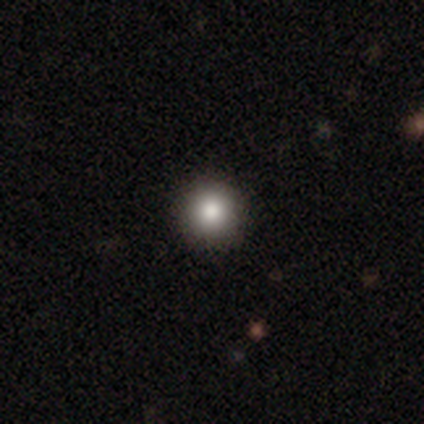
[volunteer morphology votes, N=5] This appears to be a smooth galaxy with no disk features (40%, tied with star or artifact) that is round (100%). Merging: none (100%).